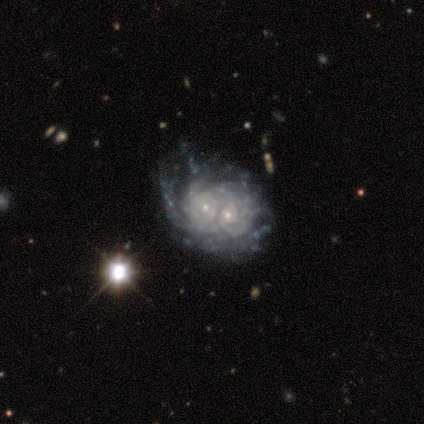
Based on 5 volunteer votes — Volunteers were most divided on "spiral arm count": can't tell: 60%, 3: 20%, more than 4: 20%, 1: 0%, 2: 0%, 4: 0%. More confident: smooth or featured — featured or disk (100%); edge-on disk — no (100%); spiral arms — yes (100%); merging — merger (100%); bar — no (80%); spiral winding — tight (80%); bulge size — small (80%).